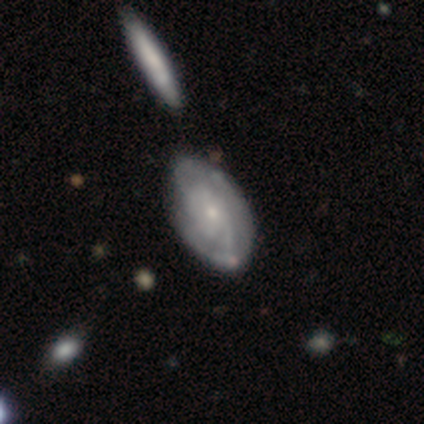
Smooth or featured?
  - featured or disk: 85% *
  - smooth: 13%
  - star or artifact: 3%
Edge-on disk?
  - no: 94% *
  - yes: 6%
Bar?
  - no: 71% *
  - weak: 26%
  - strong: 3%
Spiral arms?
  - yes: 97% *
  - no: 3%
Spiral winding?
  - tight: 53% *
  - medium: 30%
  - loose: 17%
Spiral arm count?
  - can't tell: 47% *
  - 2: 37%
  - 3: 13%
  - 1: 3%
  - 4: 0%
  - more than 4: 0%
Bulge size?
  - small: 74% *
  - moderate: 23%
  - none: 3%
  - dominant: 0%
  - large: 0%
Merging?
  - none: 50% *
  - minor disturbance: 16%
  - merger: 8%
  - major disturbance: 0%